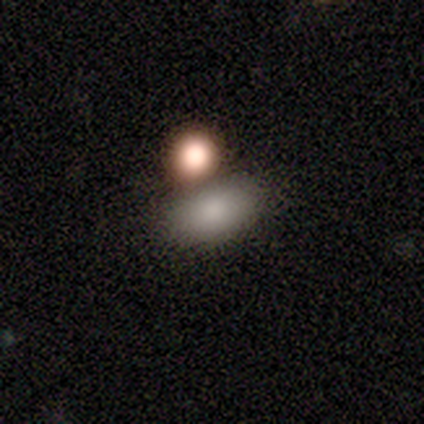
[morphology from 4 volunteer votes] Smooth or featured? 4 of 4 (100%) said smooth. How rounded? 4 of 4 (100%) said in between. Merging? 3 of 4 (75%) said none.